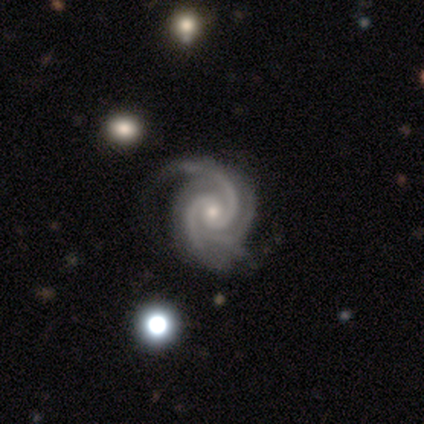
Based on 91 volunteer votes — A featured or disk galaxy (98%) with no bar (74%), 3 (41%) tight (74%) spiral arms (100%) and a small central bulge (65%). Merging: none (72%).